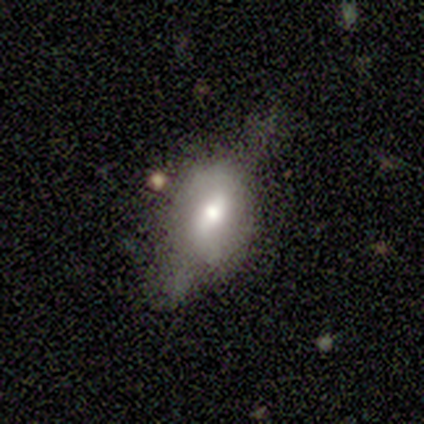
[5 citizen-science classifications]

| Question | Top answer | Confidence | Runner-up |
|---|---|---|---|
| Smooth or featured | featured or disk | 60% | smooth (20%) |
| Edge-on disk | no | 67% | yes (33%) |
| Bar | weak | 100% | — |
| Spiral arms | no | 100% | — |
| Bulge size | moderate | 100% | — |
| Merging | major disturbance | 75% | none (25%) |